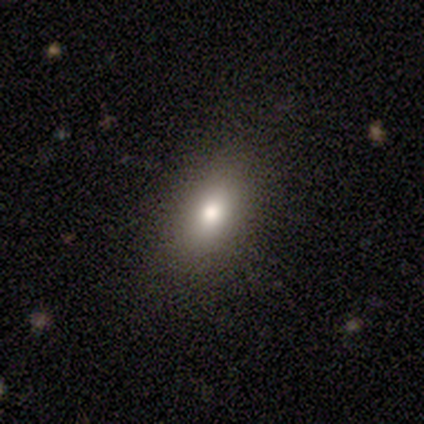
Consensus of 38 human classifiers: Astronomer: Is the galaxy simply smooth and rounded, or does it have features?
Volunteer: smooth — 66%.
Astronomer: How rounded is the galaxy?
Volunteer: in between — 84%.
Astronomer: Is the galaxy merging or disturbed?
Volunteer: none — 84%.